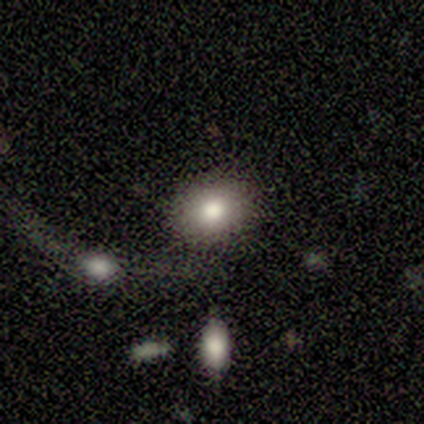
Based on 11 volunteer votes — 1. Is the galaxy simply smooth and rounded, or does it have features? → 73% smooth, 18% featured or disk, 9% star or artifact.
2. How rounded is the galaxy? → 88% in between, 12% round, 0% cigar-shaped.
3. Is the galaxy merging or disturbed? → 70% none, 20% minor disturbance, 10% major disturbance, 0% merger.